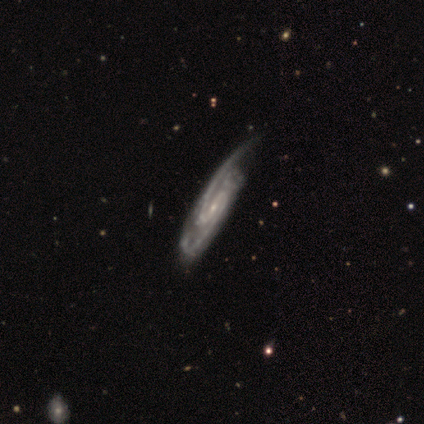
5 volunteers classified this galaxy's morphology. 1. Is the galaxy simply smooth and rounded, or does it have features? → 80% featured or disk, 20% star or artifact, 0% smooth.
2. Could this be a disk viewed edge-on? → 100% no, 0% yes.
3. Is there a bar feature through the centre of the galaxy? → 75% strong, 25% no, 0% weak.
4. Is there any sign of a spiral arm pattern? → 100% yes, 0% no.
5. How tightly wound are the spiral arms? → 100% medium, 0% tight, 0% loose.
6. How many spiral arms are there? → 100% 2, 0% 1, 0% 3, 0% 4, 0% more than 4, 0% can't tell.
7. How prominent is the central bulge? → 100% small, 0% dominant, 0% large, 0% moderate, 0% none.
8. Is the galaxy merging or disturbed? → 75% major disturbance, 25% none, 0% minor disturbance, 0% merger.